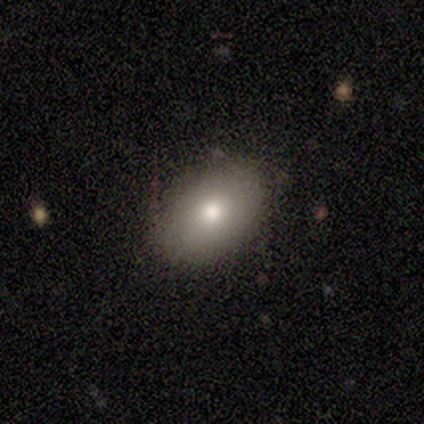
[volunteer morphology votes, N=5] A smooth galaxy with no disk features (60%) that is in between round and cigar-shaped (100%).

Vote fractions:
- Smooth or featured? smooth: 60% / featured or disk: 20% / star or artifact: 20%
- How rounded? in between: 100% / round: 0% / cigar-shaped: 0%
- Merging? none: 100% / minor disturbance: 0% / major disturbance: 0% / merger: 0%